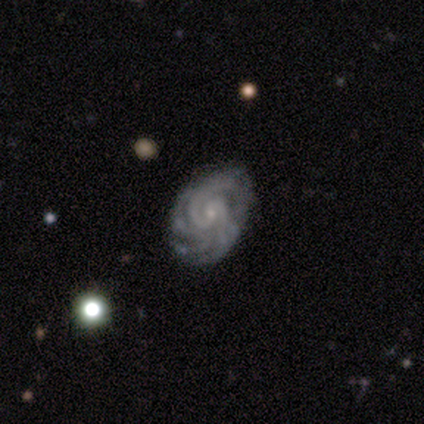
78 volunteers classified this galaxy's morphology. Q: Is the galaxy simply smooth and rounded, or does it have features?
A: featured or disk — 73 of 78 (94%).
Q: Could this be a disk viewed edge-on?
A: no — 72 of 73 (99%).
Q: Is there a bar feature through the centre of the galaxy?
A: no — 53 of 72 (74%).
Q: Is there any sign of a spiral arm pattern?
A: yes — 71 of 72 (99%).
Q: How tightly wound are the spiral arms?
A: tight — 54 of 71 (76%).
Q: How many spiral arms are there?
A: more than 4 — 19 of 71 (27%).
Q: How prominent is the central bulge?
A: small — 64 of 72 (89%).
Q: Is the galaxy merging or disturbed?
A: none — 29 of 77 (38%).